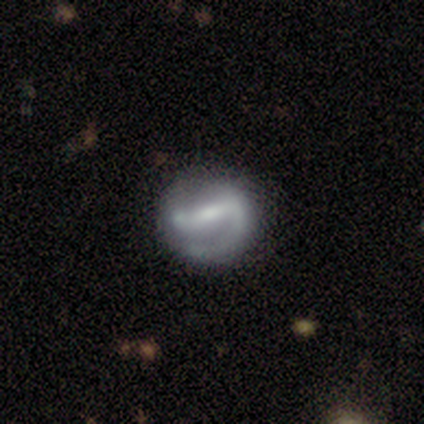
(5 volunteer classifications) featured or disk 80%, smooth 20%, star or artifact 0%. Down the decision tree: edge-on disk — no (100%); bar — strong (75%); spiral arms — yes (75%); spiral arm count — 2 (67%); spiral winding — loose (100%); bulge size — moderate (50%); merging — minor disturbance (40%, tied with major disturbance).